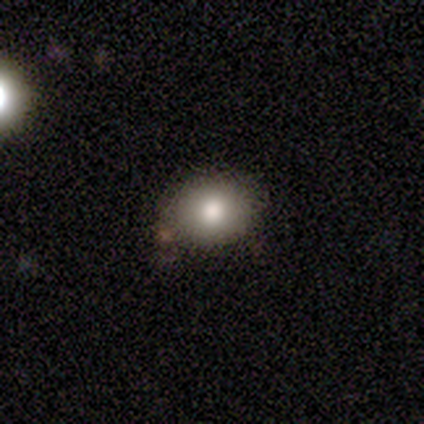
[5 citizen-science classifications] smooth_or_featured: smooth (p=1.00)
how_rounded: round (p=0.60) [alt: in between p=0.40]
merging: none (p=1.00)